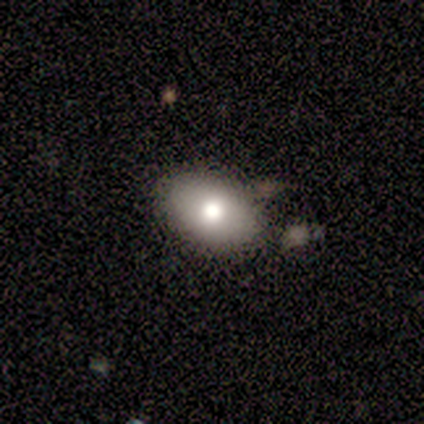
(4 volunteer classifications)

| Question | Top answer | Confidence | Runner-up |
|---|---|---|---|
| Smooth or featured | smooth | 75% | star or artifact (25%) |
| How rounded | in between | 100% | — |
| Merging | none | 100% | — |